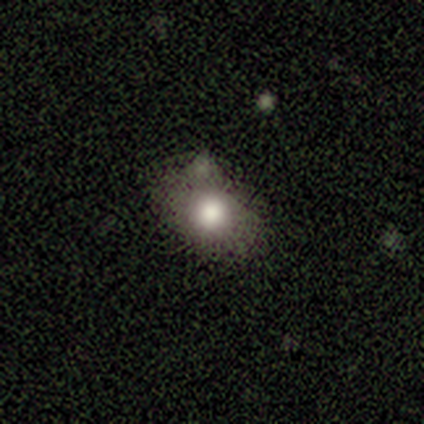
Smooth or featured?
  - smooth: 75% *
  - star or artifact: 25%
  - featured or disk: 0%
How rounded?
  - in between: 67% *
  - round: 33%
  - cigar-shaped: 0%
Merging?
  - major disturbance: 67% *
  - none: 33%
  - minor disturbance: 0%
  - merger: 0%